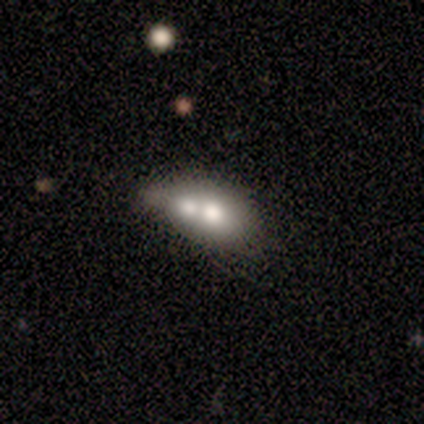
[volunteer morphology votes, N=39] This is possibly a smooth galaxy (51%). How rounded: clearly in between (80%). Merging: likely merger (71%).